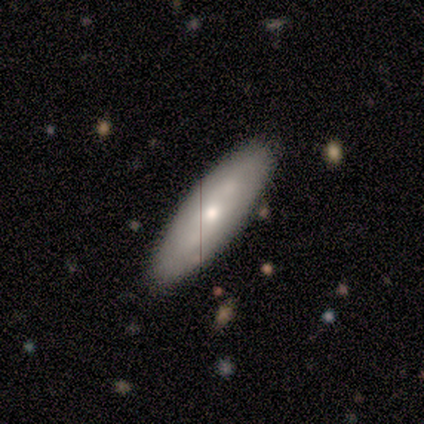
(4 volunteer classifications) Volunteers were most divided on "how rounded": in between: 67%, cigar-shaped: 33%, round: 0%. More confident: smooth or featured — smooth (75%); merging — none (67%).